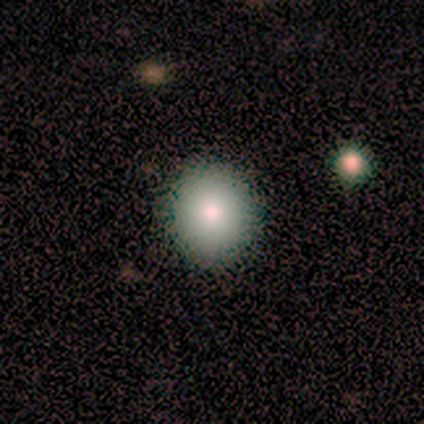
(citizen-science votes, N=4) Smooth or featured?
  - smooth: 100% *
  - featured or disk: 0%
  - star or artifact: 0%
How rounded?
  - round: 100% *
  - in between: 0%
  - cigar-shaped: 0%
Merging?
  - none: 100% *
  - minor disturbance: 0%
  - major disturbance: 0%
  - merger: 0%